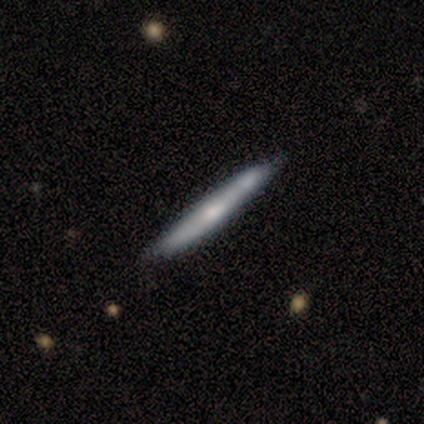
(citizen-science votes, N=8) Smooth or featured?
  - featured or disk: 50% *
  - smooth: 38%
  - star or artifact: 12%
Edge-on disk?
  - yes: 75% *
  - no: 25%
Edge-on bulge?
  - rounded: 67% *
  - none: 33%
  - boxy: 0%
Merging?
  - none: 71% *
  - minor disturbance: 14%
  - merger: 14%
  - major disturbance: 0%